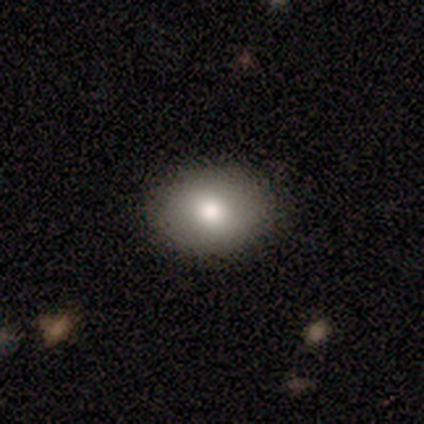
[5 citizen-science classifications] Morphology: type=smooth (80%); roundness=round (50%, tied with in between); merging=none (100%).